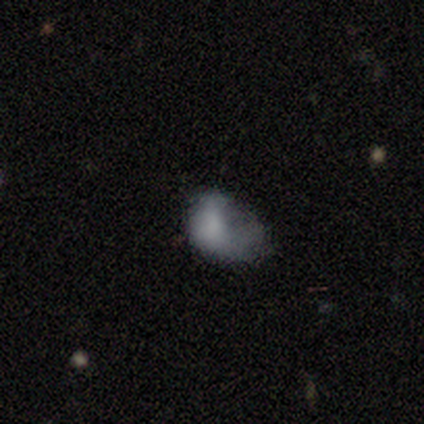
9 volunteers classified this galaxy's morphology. smooth_or_featured: smooth (p=0.67) [alt: featured or disk p=0.33]
how_rounded: in between (p=1.00)
merging: major disturbance (p=0.44) [alt: none p=0.33]